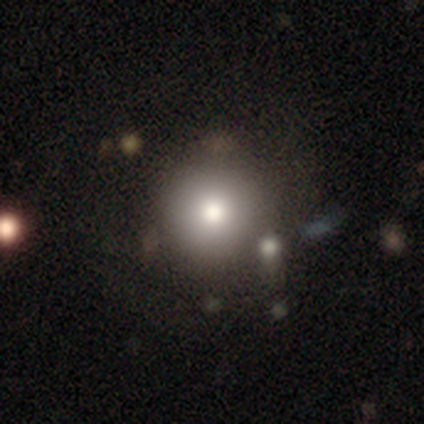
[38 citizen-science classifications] Morphology: type=smooth (74%); roundness=round (100%); merging=none (71%).